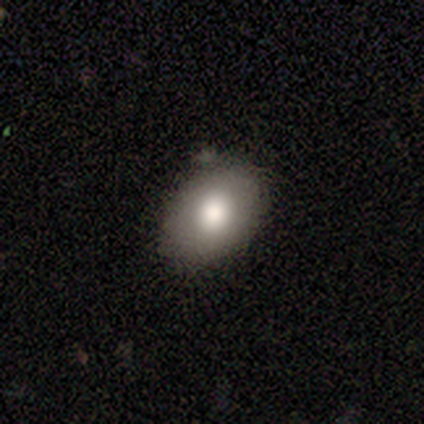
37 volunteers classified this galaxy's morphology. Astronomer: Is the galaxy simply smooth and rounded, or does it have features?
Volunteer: smooth — 84%.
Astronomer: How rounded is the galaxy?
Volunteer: in between — 84%.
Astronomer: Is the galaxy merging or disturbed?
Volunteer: none — 78%.